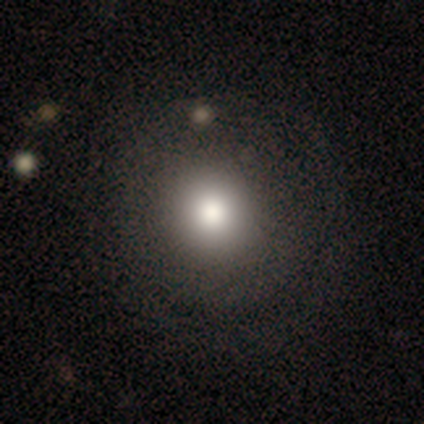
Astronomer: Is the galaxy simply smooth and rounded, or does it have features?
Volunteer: smooth — 78%.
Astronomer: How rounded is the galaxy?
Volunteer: round — 93%.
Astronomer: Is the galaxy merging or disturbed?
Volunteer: none — 58%.